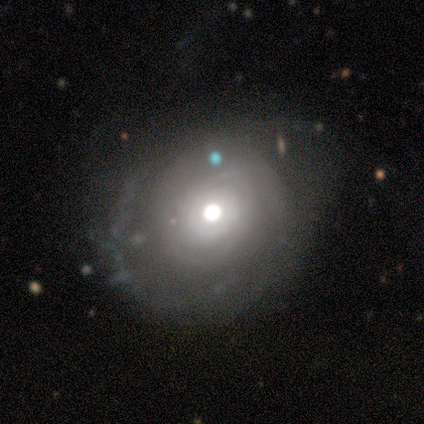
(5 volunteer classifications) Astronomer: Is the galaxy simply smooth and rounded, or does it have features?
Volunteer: featured or disk — 100%.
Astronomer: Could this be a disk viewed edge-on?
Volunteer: no — 80%.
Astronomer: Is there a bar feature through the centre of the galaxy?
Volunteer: no — 100%.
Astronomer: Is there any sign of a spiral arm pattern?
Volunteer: yes — 50%, tied with no at 50%.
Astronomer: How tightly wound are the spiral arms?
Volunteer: tight — 50%, tied with loose at 50%.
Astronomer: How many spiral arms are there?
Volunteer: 1 — 50%, tied with 2 at 50%.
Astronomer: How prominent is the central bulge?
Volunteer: moderate — 50%.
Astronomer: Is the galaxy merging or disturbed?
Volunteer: none — 80%.